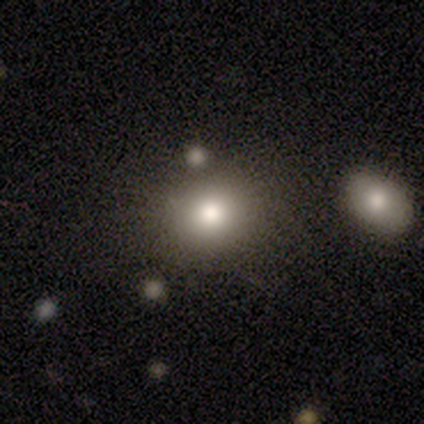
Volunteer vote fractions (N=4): Smooth or featured: smooth — 100%
How rounded: round — 75% (in between — 25%)
Merging: none — 75% (merger — 25%)